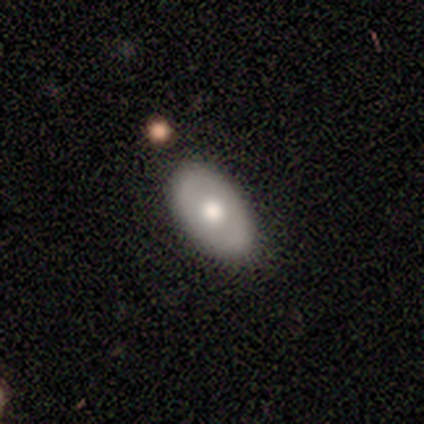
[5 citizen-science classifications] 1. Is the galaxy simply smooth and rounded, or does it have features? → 80% smooth, 20% featured or disk, 0% star or artifact.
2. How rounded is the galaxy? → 100% in between, 0% round, 0% cigar-shaped.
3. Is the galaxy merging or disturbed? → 80% none, 20% minor disturbance, 0% major disturbance, 0% merger.